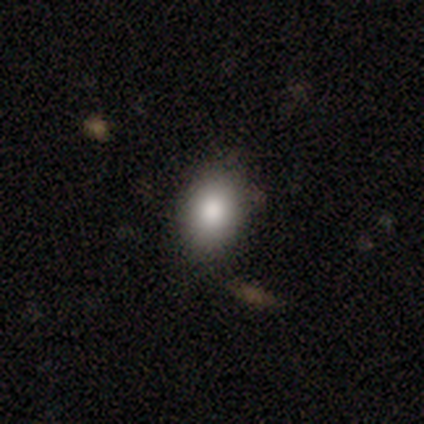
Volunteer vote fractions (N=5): smooth-or-featured: smooth: 100% | featured or disk: 0% | star or artifact: 0%
  how-rounded: in between: 100% | round: 0% | cigar-shaped: 0%
  merging: none: 80% | minor disturbance: 20% | major disturbance: 0% | merger: 0%